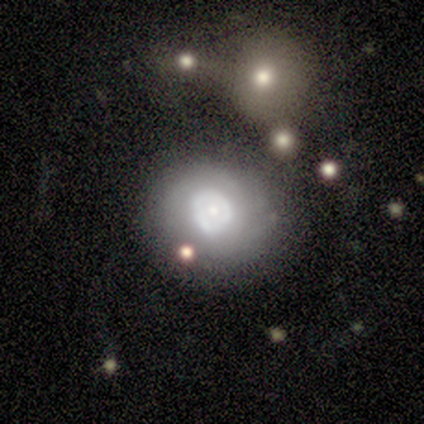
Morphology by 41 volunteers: Smooth or featured? featured or disk (49%)
Edge-on disk? no (100%)
Bar? no (85%)
Spiral arms? no (90%)
Bulge size? moderate (55%)
Merging? none (53%)